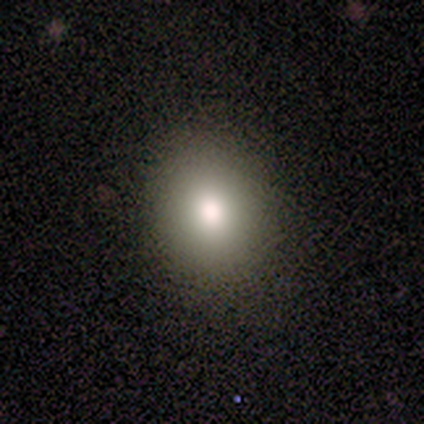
Overall: smooth (100%). How rounded: in between (62%; round 38%). Merging: none (75%).